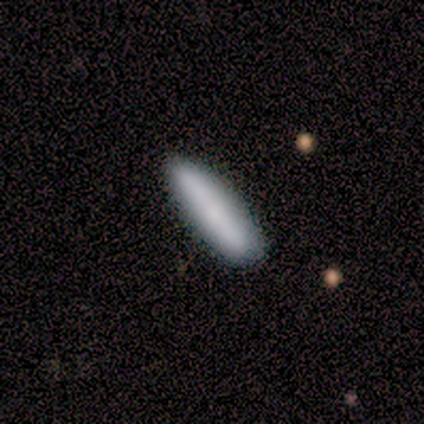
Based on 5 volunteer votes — This is clearly a smooth galaxy (100%). How rounded: clearly cigar-shaped (100%). Merging: clearly none (100%).